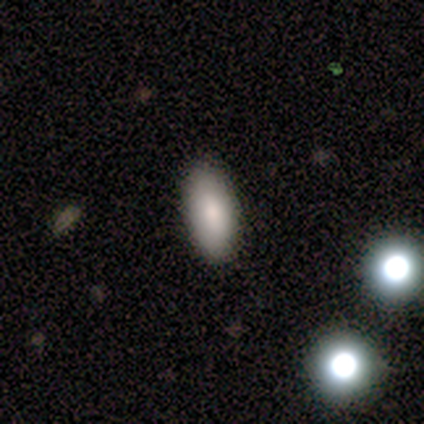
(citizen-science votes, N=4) Smooth or featured: smooth — 50% (featured or disk — 25%)
How rounded: in between — 100%
Merging: none — 100%